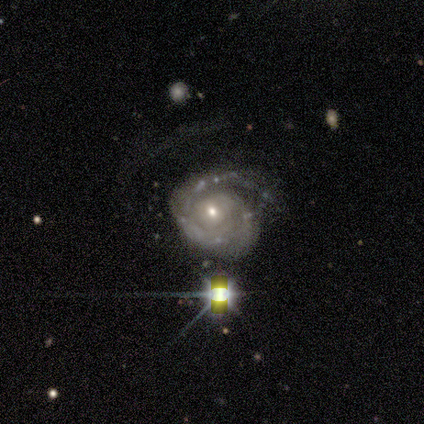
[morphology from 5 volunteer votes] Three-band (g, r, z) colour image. It shows a featured or disk galaxy (100%) with no bar (50%), 2 (50%) tight (75%) spiral arms (100%) and a moderate central bulge (75%). Merging: none (40%, tied with major disturbance).